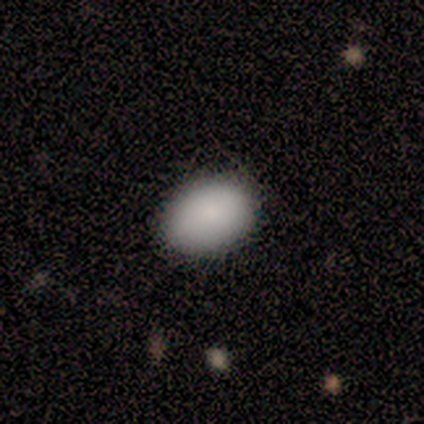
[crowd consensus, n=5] smooth_or_featured: smooth (p=1.00)
how_rounded: in between (p=1.00)
merging: none (p=0.80) [alt: major disturbance p=0.20]